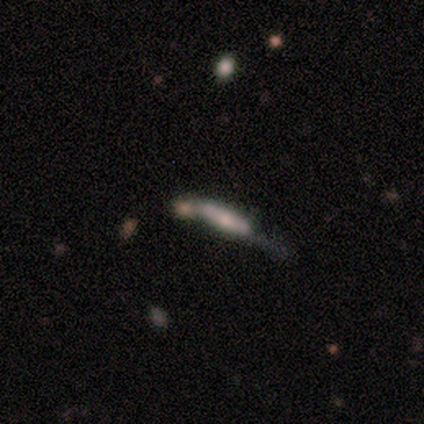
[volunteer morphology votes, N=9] type=featured or disk (56%); edge-on=no (60%); bar=no (67%); spiral arms=no (67%); bulge=large (33%, tied with moderate and small); merging=minor disturbance (33%, tied with merger).